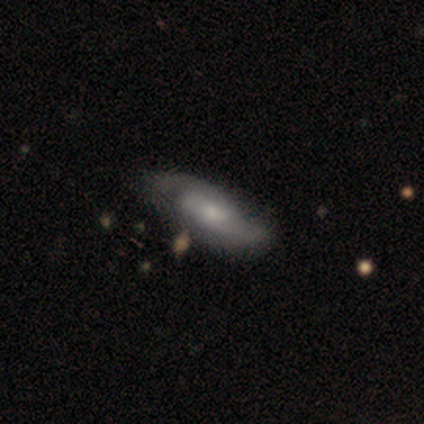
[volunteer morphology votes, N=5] smooth 60%, featured or disk 40%, star or artifact 0%. Down the decision tree: how rounded — in between (67%); merging — none (80%).